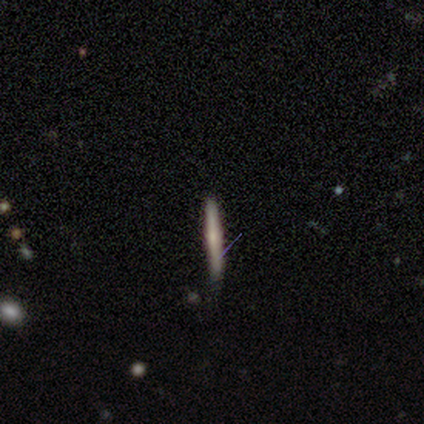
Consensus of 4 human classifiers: smooth_or_featured: smooth (p=0.75) [alt: featured or disk p=0.25]
how_rounded: cigar-shaped (p=1.00)
merging: none (p=0.75) [alt: minor disturbance p=0.25]